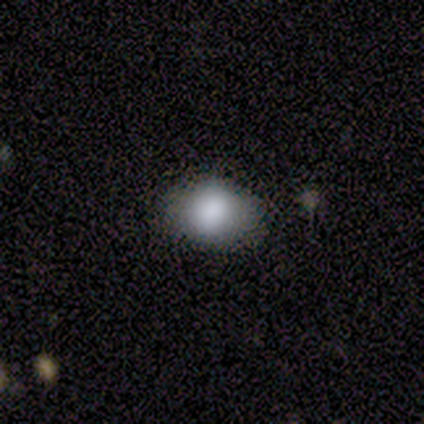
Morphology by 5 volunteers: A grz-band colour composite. It shows a smooth galaxy with no disk features (80%) that is in between round and cigar-shaped (100%). Merging: none (75%).